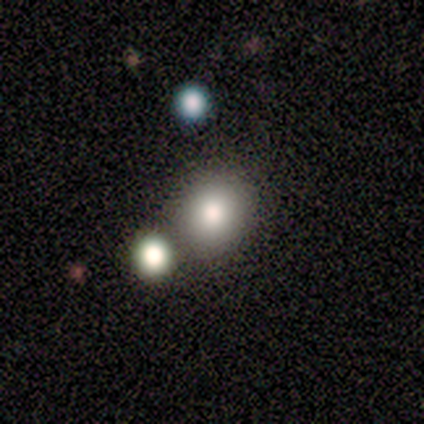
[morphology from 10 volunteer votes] smooth_or_featured: smooth (p=0.80) [alt: star or artifact p=0.20]
how_rounded: round (p=0.75) [alt: in between p=0.25]
merging: none (p=0.88) [alt: minor disturbance p=0.12]